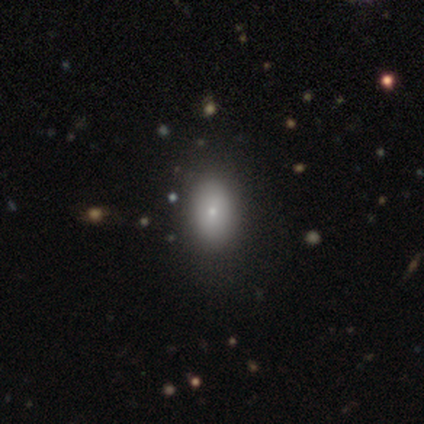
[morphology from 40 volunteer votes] This is clearly a smooth galaxy (80%). How rounded: clearly in between (81%). Merging: likely none (76%).